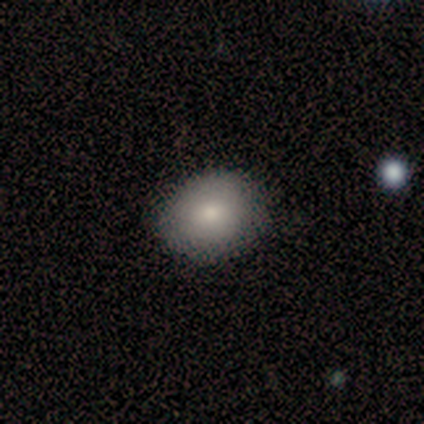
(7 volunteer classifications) Smooth or featured? smooth (100%)
How rounded? round (57%)
Merging? none (71%)